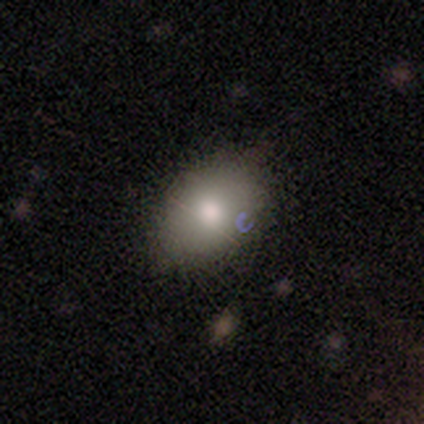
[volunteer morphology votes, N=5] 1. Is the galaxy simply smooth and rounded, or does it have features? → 60% star or artifact, 40% smooth, 0% featured or disk.